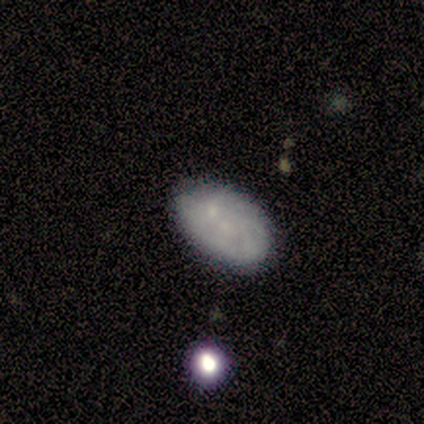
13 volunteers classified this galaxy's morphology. Smooth or featured? smooth (46%, tied with featured or disk)
How rounded? in between (83%)
Merging? none (75%)